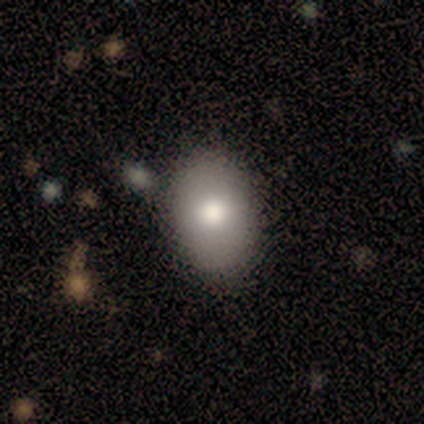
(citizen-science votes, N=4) smooth 100%, featured or disk 0%, star or artifact 0%. Down the decision tree: how rounded — in between (100%); merging — none (75%).